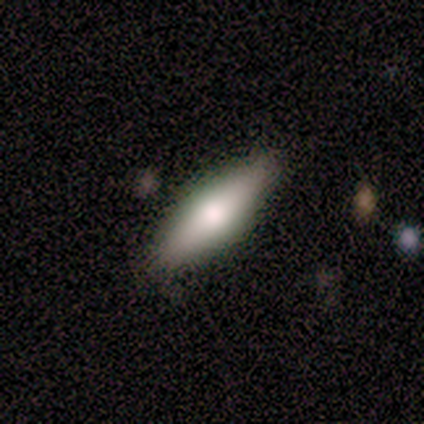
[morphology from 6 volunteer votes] Volunteers were most divided on "smooth or featured": smooth: 67%, featured or disk: 33%, star or artifact: 0%. More confident: how rounded — in between (100%); merging — none (83%).